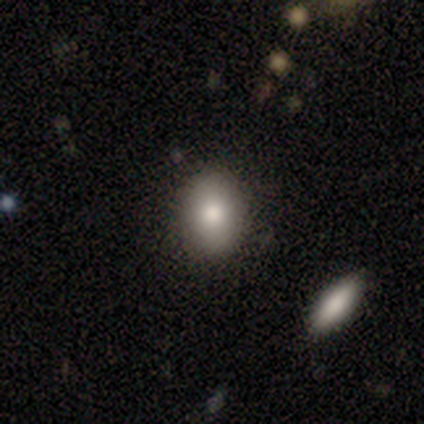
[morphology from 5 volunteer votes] A smooth galaxy with no disk features (80%) that is round (75%).

Vote fractions:
- Smooth or featured? smooth: 80% / featured or disk: 20% / star or artifact: 0%
- How rounded? round: 75% / in between: 25% / cigar-shaped: 0%
- Merging? none: 80% / merger: 20% / minor disturbance: 0% / major disturbance: 0%